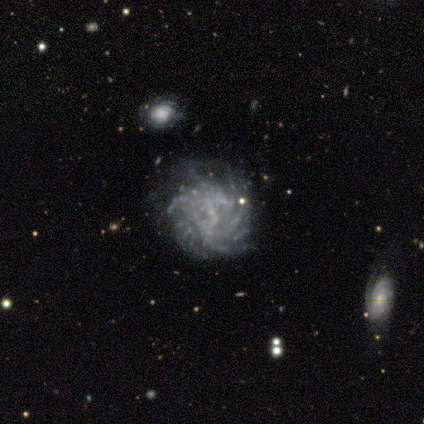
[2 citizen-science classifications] A featured or disk galaxy (100%) with a weak bar (100%), tight (50%, tied with medium) spiral arms (100%) and a small central bulge (100%). Merging: none (50%, tied with minor disturbance).